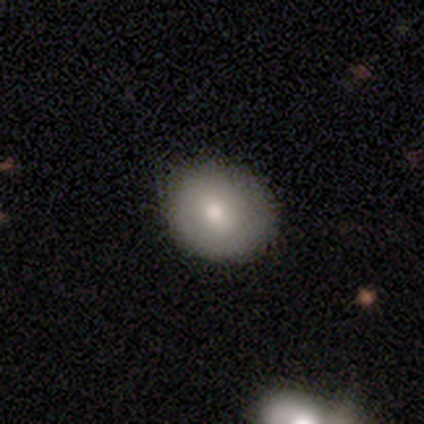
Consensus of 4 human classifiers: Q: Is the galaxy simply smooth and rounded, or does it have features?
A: smooth — 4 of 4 (100%).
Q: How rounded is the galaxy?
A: round — 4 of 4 (100%).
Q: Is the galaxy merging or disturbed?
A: none — 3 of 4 (75%).